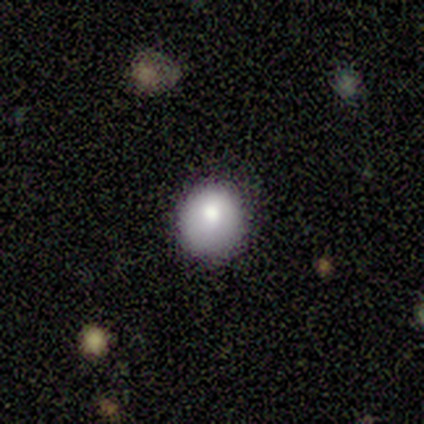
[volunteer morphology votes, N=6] This is clearly a smooth galaxy (100%). How rounded: likely round (67%). Merging: clearly none (83%).